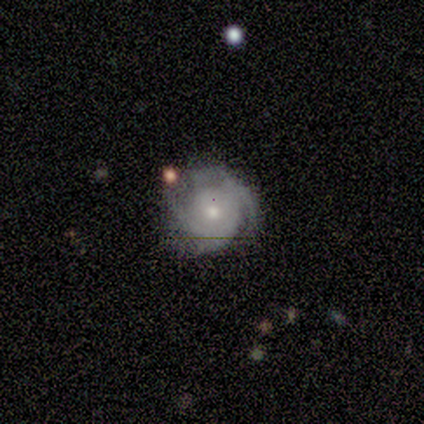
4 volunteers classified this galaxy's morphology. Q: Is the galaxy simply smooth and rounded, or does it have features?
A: featured or disk — 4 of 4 (100%).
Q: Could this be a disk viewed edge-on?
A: no — 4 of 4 (100%).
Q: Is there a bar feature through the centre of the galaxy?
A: weak — 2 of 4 (50%, tied with no).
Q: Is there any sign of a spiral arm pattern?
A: yes — 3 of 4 (75%).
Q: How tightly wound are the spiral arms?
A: tight — 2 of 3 (67%).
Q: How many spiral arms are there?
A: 2 — 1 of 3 (33%, tied with 4 and can't tell).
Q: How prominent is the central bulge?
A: small — 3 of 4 (75%).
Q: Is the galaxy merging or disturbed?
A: none — 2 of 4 (50%, tied with minor disturbance).